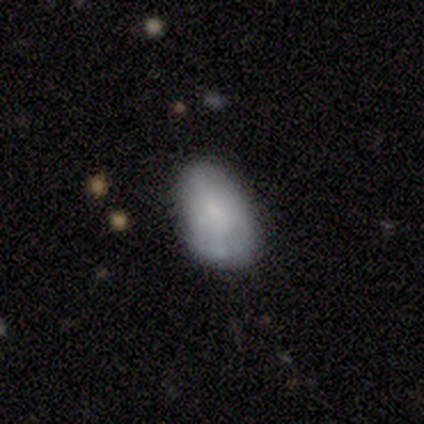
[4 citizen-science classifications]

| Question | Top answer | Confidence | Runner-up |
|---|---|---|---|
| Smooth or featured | featured or disk | 75% | smooth (25%) |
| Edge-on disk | no | 100% | — |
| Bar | no | 67% | strong (33%) |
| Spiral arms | no | 67% | yes (33%) |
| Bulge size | small | 67% | moderate (33%) |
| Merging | none | 75% | minor disturbance (25%) |